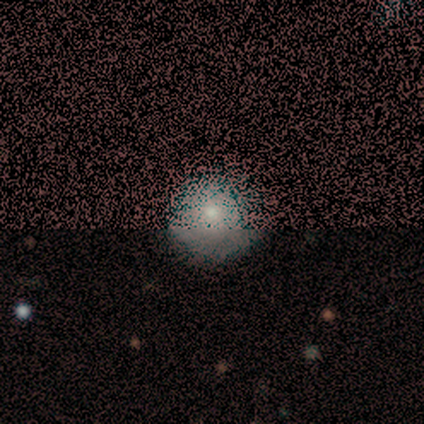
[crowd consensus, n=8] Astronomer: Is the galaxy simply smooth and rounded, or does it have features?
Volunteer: smooth — 75%.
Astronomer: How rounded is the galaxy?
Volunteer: round — 100%.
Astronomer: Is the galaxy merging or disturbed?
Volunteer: none — 86%.